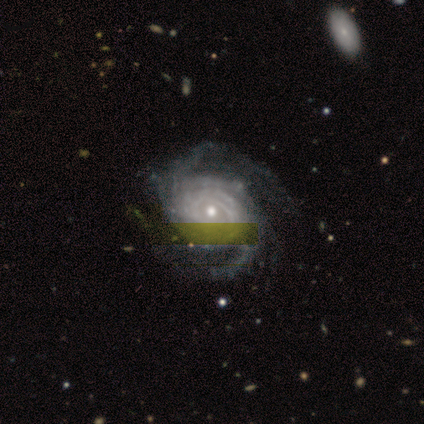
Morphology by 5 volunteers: Volunteers were most divided on "spiral arm count" (4-way tie): 2: 25%, 4: 25%, more than 4: 25%, can't tell: 25%, 1: 0%, 3: 0%. More confident: edge-on disk — no (100%); bar — no (100%); spiral arms — yes (100%); smooth or featured — featured or disk (80%); spiral winding — medium (75%); bulge size — small (75%); merging — none (50%).